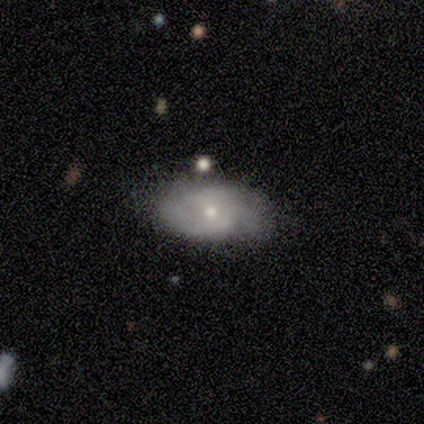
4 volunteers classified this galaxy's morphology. Overall: smooth (75%). How rounded: in between (100%). Merging: none (75%).